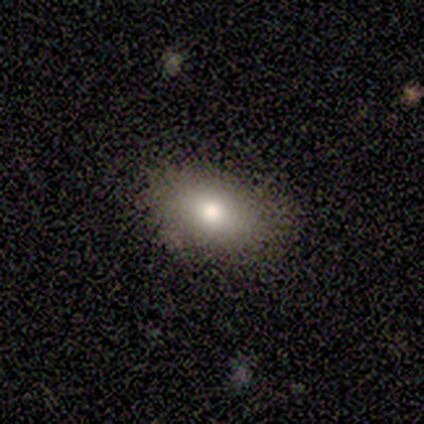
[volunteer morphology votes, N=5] Overall: smooth (80%). How rounded: in between (100%). Merging: none (100%).